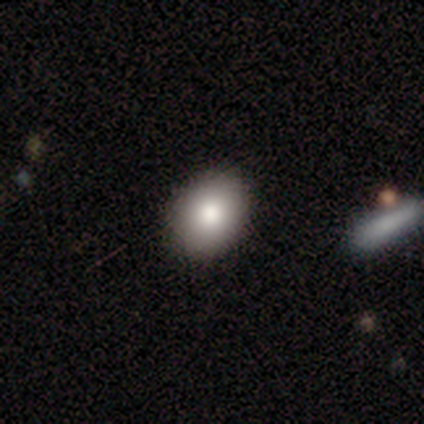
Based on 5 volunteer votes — A smooth galaxy with no disk features (80%) that is in between round and cigar-shaped (100%). Merging: none (80%).